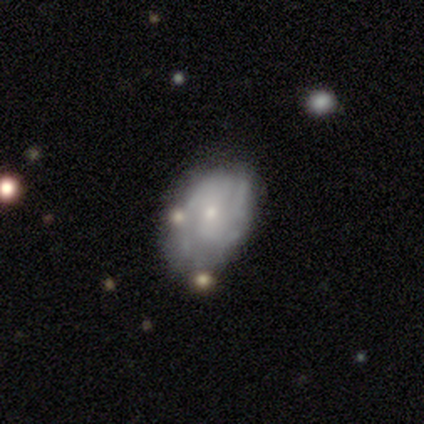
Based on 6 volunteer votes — Smooth or featured? featured or disk (83%)
Edge-on disk? no (100%)
Bar? no (100%)
Spiral arms? yes (80%)
Spiral winding? medium (75%)
Spiral arm count? 2 (75%)
Bulge size? small (60%)
Merging? none (67%)